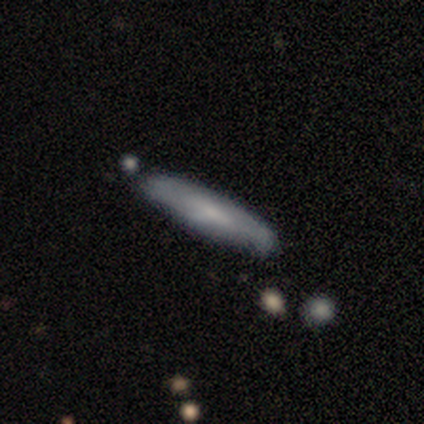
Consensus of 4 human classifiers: Q: Smooth or featured?
A: smooth (75%); runner-up: featured or disk (25%)
Q: How rounded?
A: cigar-shaped (67%); runner-up: in between (33%)
Q: Merging?
A: none (75%); runner-up: merger (25%)